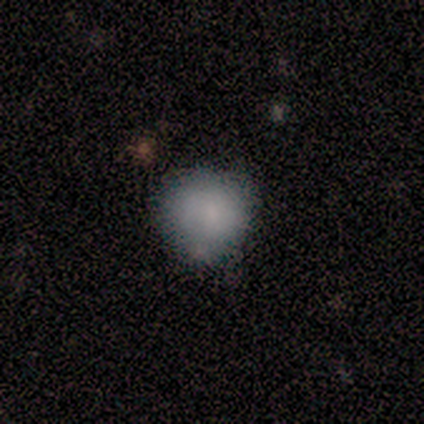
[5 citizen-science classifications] A smooth galaxy with no disk features (80%) that is round (75%). Merging: minor disturbance (60%).